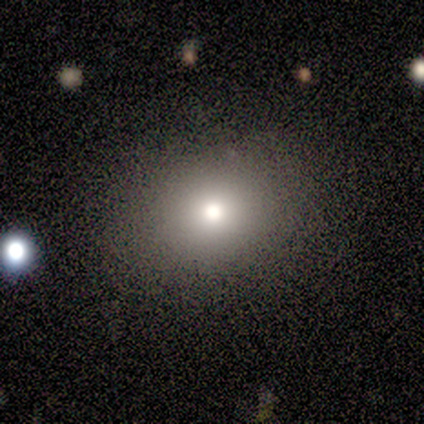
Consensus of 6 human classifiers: smooth-or-featured: smooth: 100% | featured or disk: 0% | star or artifact: 0%
  how-rounded: round: 67% | in between: 33% | cigar-shaped: 0%
  merging: none: 100% | minor disturbance: 0% | major disturbance: 0% | merger: 0%